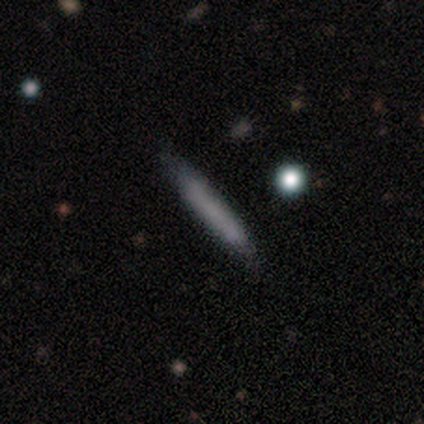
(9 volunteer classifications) Volunteers were most divided on "merging": none: 67%, minor disturbance: 33%, major disturbance: 0%, merger: 0%. More confident: how rounded — cigar-shaped (100%); smooth or featured — smooth (78%).